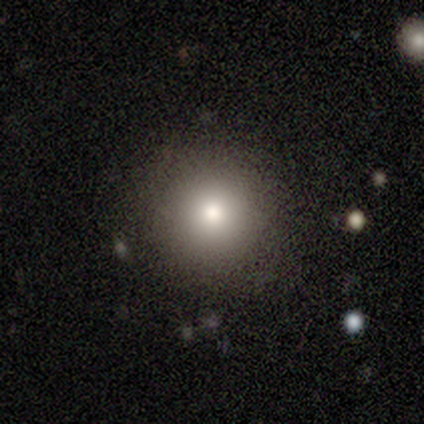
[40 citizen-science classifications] Smooth or featured? smooth (82%)
How rounded? round (94%)
Merging? none (94%)